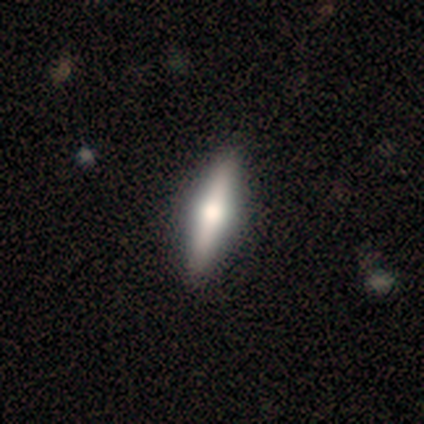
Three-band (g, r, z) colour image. It shows a smooth galaxy with no disk features (54%) that is cigar-shaped (57%). Merging: none (89%).